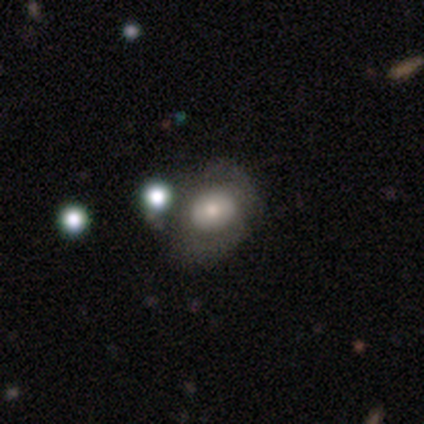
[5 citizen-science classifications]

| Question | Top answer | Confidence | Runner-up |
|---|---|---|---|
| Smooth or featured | smooth | 80% | featured or disk (20%) |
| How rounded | round | 75% | in between (25%) |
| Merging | none | 40% | tied: minor disturbance (40%) |